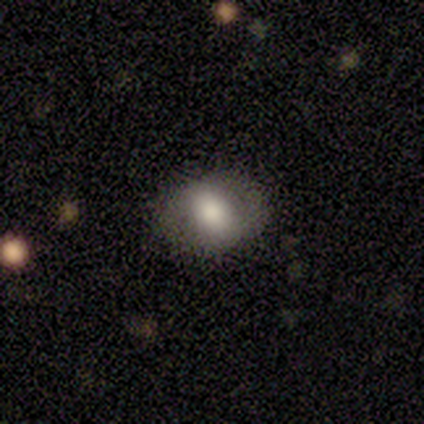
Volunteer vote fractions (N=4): This is likely a smooth galaxy (75%). How rounded: likely in between (67%). Merging: likely none (67%).